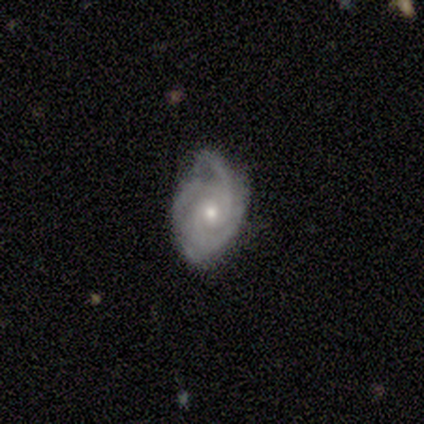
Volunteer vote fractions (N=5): A featured or disk galaxy (100%) with no bar (100%), 2 (40%, tied with 3) tight (80%) spiral arms (100%) and a moderate central bulge (80%). Merging: none (40%, tied with minor disturbance).